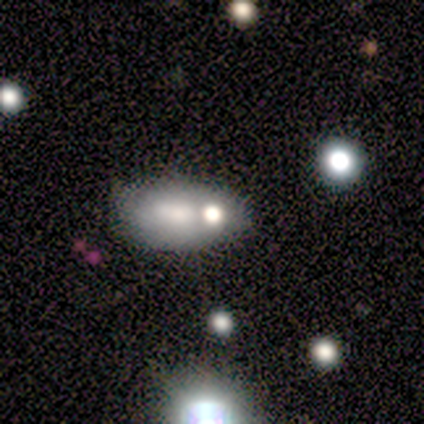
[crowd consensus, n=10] Smooth or featured? 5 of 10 (50%) said smooth. How rounded? 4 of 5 (80%) said in between. Merging? 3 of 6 (50%) said none.